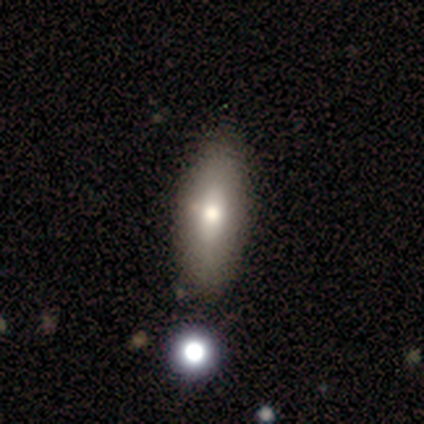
Morphology: type=smooth (60%); roundness=in between (100%); merging=none (100%).